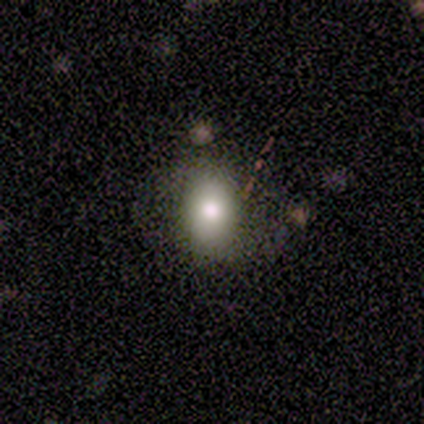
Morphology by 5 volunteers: This is likely a smooth galaxy (60%). How rounded: likely in between (67%). Merging: likely none (75%).